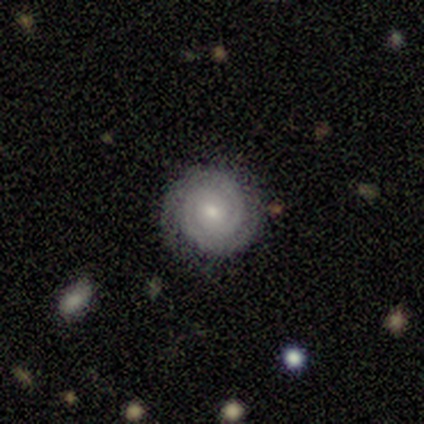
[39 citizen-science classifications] Volunteers were most divided on "bar": no: 62%, weak: 38%, strong: 0%. More confident: edge-on disk — no (97%); spiral arms — yes (97%); merging — none (94%); smooth or featured — featured or disk (85%); spiral winding — tight (84%); spiral arm count — 2 (65%); bulge size — small (59%).